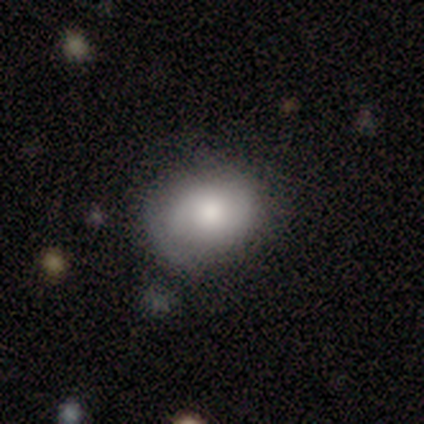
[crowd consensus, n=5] This appears to be a smooth galaxy with no disk features (80%) that is in between round and cigar-shaped (75%). Merging: none (60%).